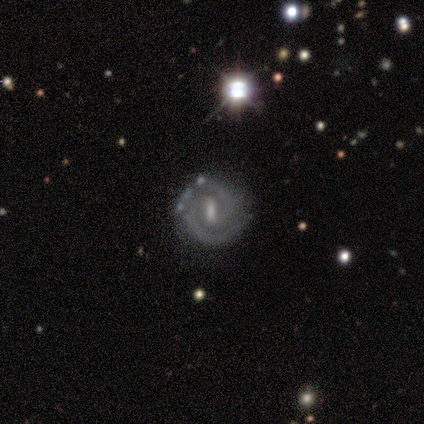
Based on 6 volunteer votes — This is clearly a featured or disk galaxy (83%). It is clearly not viewed edge-on (100%). Bar: likely strong (60%). Spiral arm pattern: clearly yes (100%). Spiral arm count: clearly 2 (80%). Spiral winding: likely medium (60%). Central bulge: marginally moderate (40%, tied with small). Merging: likely none (67%).